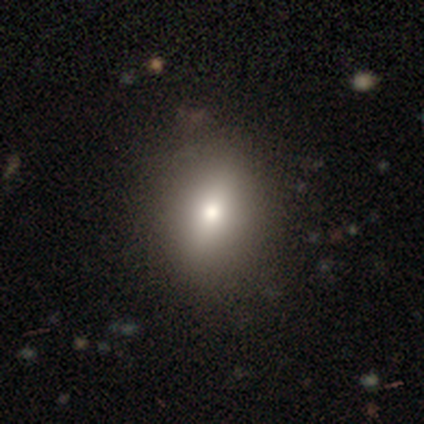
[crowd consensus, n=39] Q: Smooth or featured?
A: smooth (72%); runner-up: featured or disk (18%)
Q: How rounded?
A: round (61%); runner-up: in between (36%)
Q: Merging?
A: none (71%); runner-up: minor disturbance (20%)